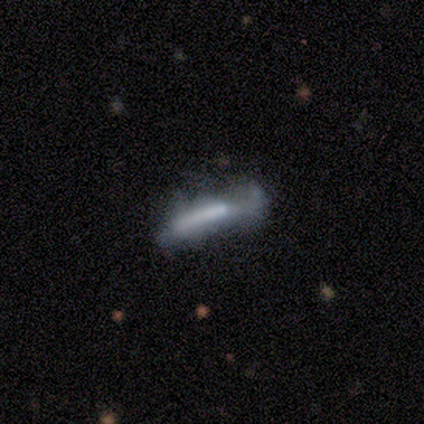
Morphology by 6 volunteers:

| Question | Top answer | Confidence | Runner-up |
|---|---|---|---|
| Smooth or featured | featured or disk | 50% | smooth (33%) |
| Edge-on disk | no | 67% | yes (33%) |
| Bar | strong | 50% | tied: no (50%) |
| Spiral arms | yes | 50% | tied: no (50%) |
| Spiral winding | loose | 100% | — |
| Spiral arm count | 2 | 100% | — |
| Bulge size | small | 50% | tied: none (50%) |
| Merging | minor disturbance | 80% | none (20%) |